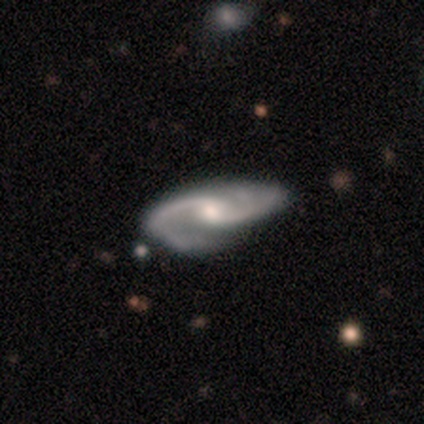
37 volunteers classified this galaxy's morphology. A featured or disk galaxy (97%) with no bar (56%), 2 (92%) medium (67%) spiral arms (100%) and a moderate central bulge (61%).

Vote fractions:
- Smooth or featured? featured or disk: 97% / smooth: 3% / star or artifact: 0%
- Edge-on disk? no: 100% / yes: 0%
- Bar? no: 56% / weak: 39% / strong: 6%
- Spiral arms? yes: 100% / no: 0%
- Spiral winding? medium: 67% / loose: 22% / tight: 11%
- Spiral arm count? 2: 92% / 3: 6% / 1: 3% / 4: 0% / more than 4: 0% / can't tell: 0%
- Bulge size? moderate: 61% / small: 36% / large: 3% / dominant: 0% / none: 0%
- Merging? none: 65% / minor disturbance: 24% / major disturbance: 8% / merger: 3%